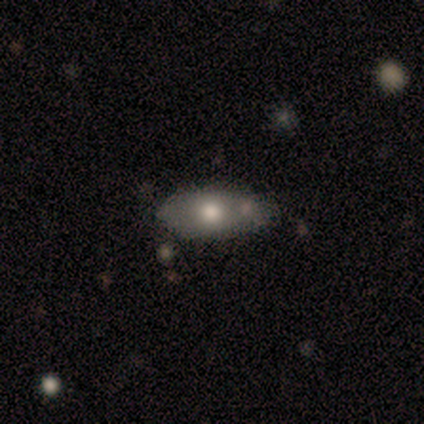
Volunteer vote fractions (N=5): A smooth galaxy with no disk features (80%) that is in between round and cigar-shaped (50%). Merging: none (60%).